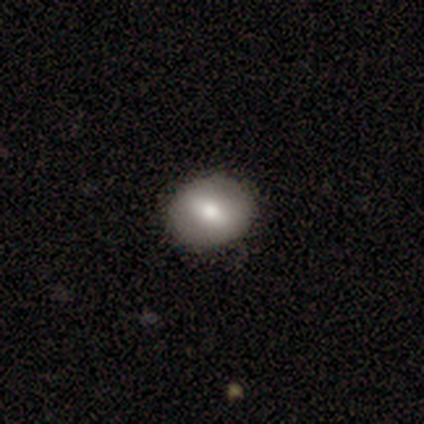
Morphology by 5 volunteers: Smooth or featured? smooth (60%)
How rounded? round (67%)
Merging? none (100%)